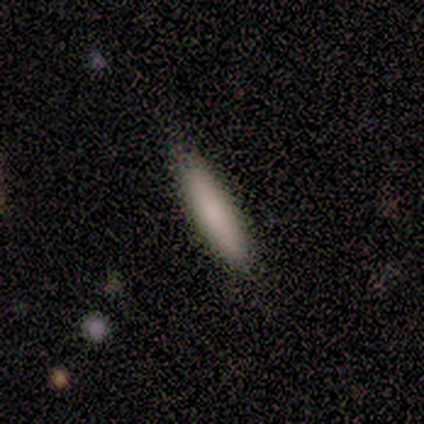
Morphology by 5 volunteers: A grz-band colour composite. It shows a smooth galaxy with no disk features (100%) that is cigar-shaped (100%). Merging: none (80%).